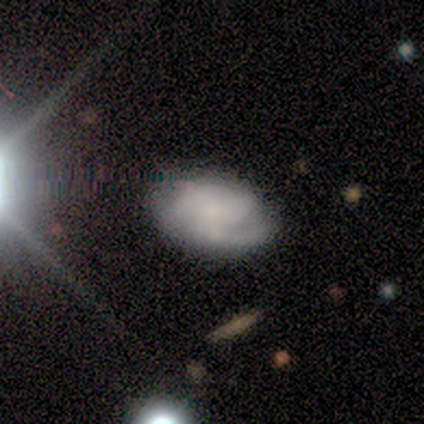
A featured or disk galaxy (80%) with no bar (100%), 2 (50%) tight (50%, tied with medium) spiral arms (100%) and a small central bulge (75%).

Vote fractions:
- Smooth or featured? featured or disk: 80% / smooth: 20% / star or artifact: 0%
- Edge-on disk? no: 100% / yes: 0%
- Bar? no: 100% / strong: 0% / weak: 0%
- Spiral arms? yes: 100% / no: 0%
- Spiral winding? tight: 50% (tied) / medium: 50% (tied) / loose: 0%
- Spiral arm count? 2: 50% / 3: 25% / can't tell: 25% / 1: 0% / 4: 0% / more than 4: 0%
- Bulge size? small: 75% / none: 25% / dominant: 0% / large: 0% / moderate: 0%
- Merging? none: 60% / minor disturbance: 40% / major disturbance: 0% / merger: 0%